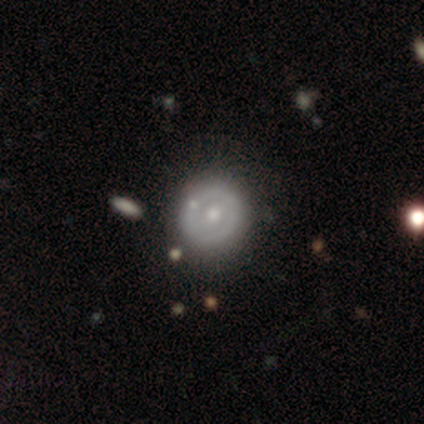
Q: Smooth or featured?
A: featured or disk (60%); runner-up: smooth (40%)
Q: Edge-on disk?
A: no (100%)
Q: Bar?
A: no (67%); runner-up: weak (33%)
Q: Spiral arms?
A: no (100%)
Q: Bulge size?
A: moderate (67%); runner-up: small (33%)
Q: Merging?
A: none (60%); runner-up: minor disturbance (40%)